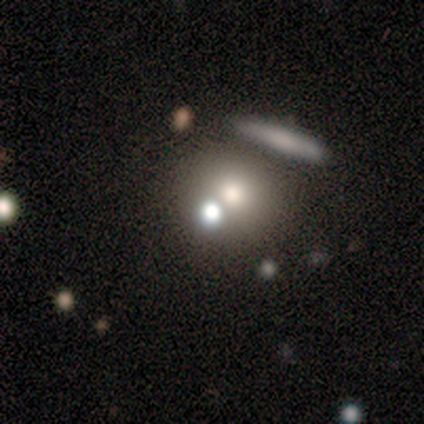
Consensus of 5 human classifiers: featured or disk 60%, smooth 20%, star or artifact 20%. Down the decision tree: edge-on disk — no (100%); bar — no (100%); spiral arms — no (100%); bulge size — moderate (67%); merging — none (50%).